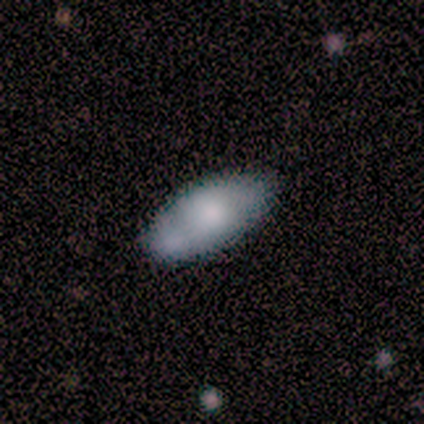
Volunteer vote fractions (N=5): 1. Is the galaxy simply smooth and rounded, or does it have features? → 80% smooth, 20% featured or disk, 0% star or artifact.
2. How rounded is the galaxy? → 100% in between, 0% round, 0% cigar-shaped.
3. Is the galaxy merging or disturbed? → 60% none, 20% minor disturbance, 20% major disturbance, 0% merger.